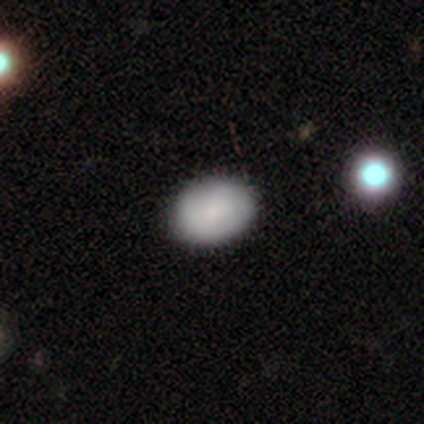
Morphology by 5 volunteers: Smooth or featured? 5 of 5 (100%) said smooth. How rounded? 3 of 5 (60%) said in between. Merging? 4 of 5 (80%) said none.